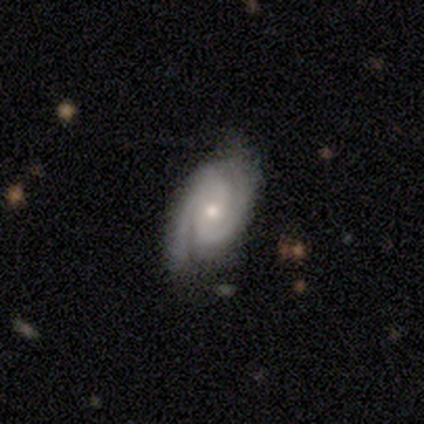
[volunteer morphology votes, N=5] A featured or disk galaxy (100%) with a weak bar (60%), 2 (60%) medium (80%) spiral arms (100%) and a small central bulge (80%). Merging: none (100%).